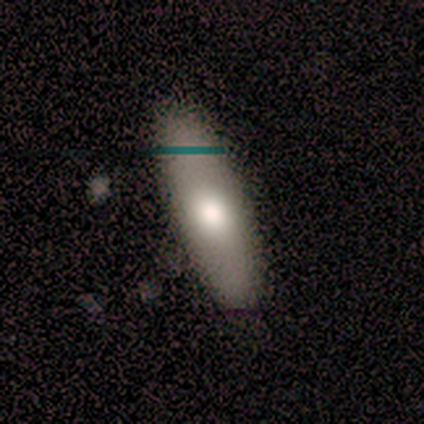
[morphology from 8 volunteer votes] Smooth or featured? 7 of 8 (88%) said smooth. How rounded? 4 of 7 (57%) said in between. Merging? 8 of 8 (100%) said none.